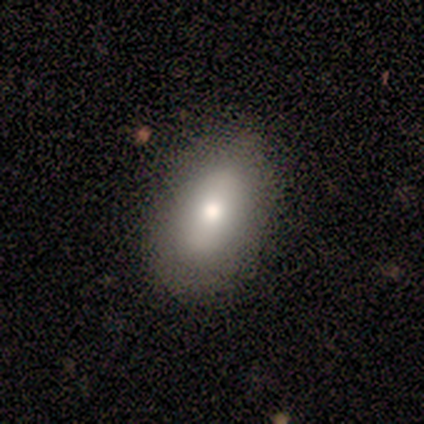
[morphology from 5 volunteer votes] Smooth or featured: smooth — 80% (featured or disk — 20%)
How rounded: in between — 100%
Merging: none — 100%